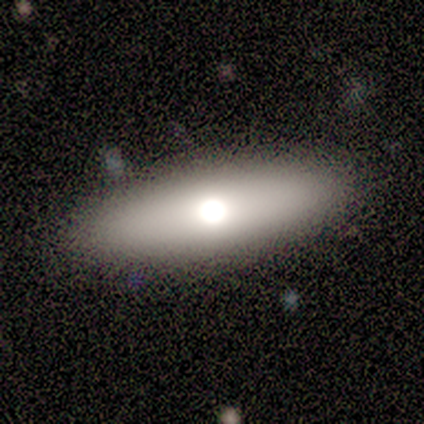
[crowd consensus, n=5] This appears to be a smooth galaxy with no disk features (100%) that is in between round and cigar-shaped (100%). Merging: none (100%).